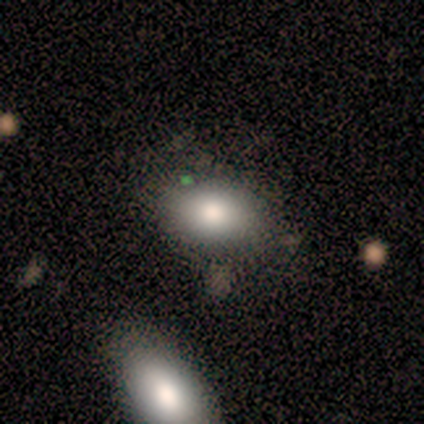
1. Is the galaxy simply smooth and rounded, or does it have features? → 80% smooth, 20% featured or disk, 0% star or artifact.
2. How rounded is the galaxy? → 100% in between, 0% round, 0% cigar-shaped.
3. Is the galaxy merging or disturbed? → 73% none, 20% minor disturbance, 7% merger, 0% major disturbance.